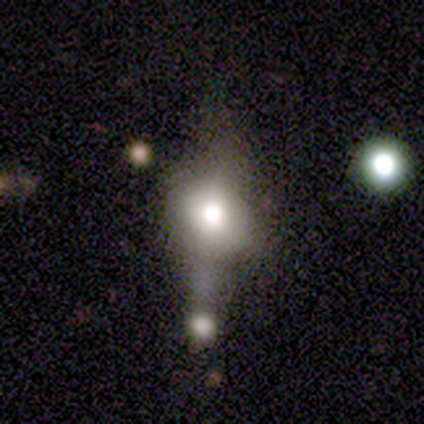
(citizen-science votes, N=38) This appears to be a smooth galaxy with no disk features (47%) that is in between round and cigar-shaped (61%). Merging: major disturbance (35%).